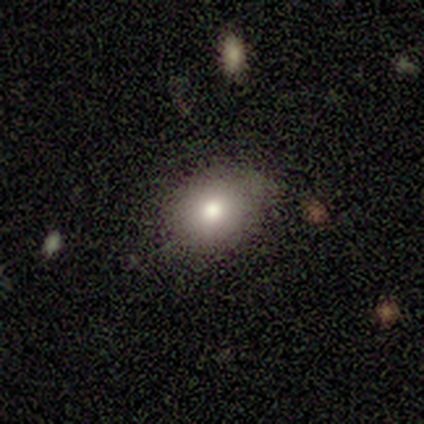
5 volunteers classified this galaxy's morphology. A smooth galaxy with no disk features (60%) that is in between round and cigar-shaped (100%).

Vote fractions:
- Smooth or featured? smooth: 60% / star or artifact: 40% / featured or disk: 0%
- How rounded? in between: 100% / round: 0% / cigar-shaped: 0%
- Merging? none: 67% / minor disturbance: 33% / major disturbance: 0% / merger: 0%